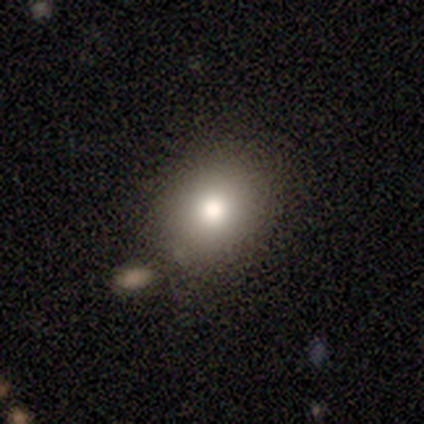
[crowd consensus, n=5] smooth_or_featured: smooth (p=1.00)
how_rounded: round (p=0.80) [alt: in between p=0.20]
merging: none (p=1.00)